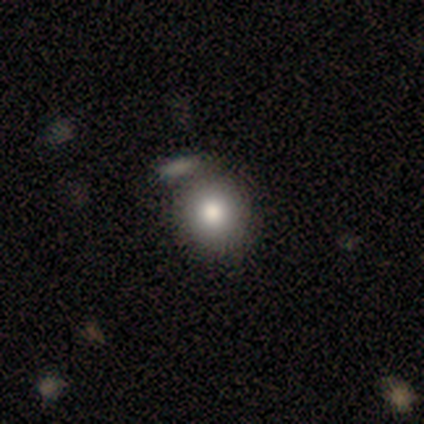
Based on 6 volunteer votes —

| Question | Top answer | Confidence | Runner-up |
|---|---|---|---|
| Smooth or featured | smooth | 100% | — |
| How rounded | round | 67% | in between (33%) |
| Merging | none | 67% | minor disturbance (17%) |